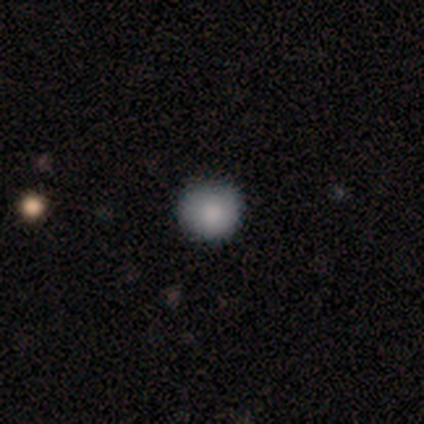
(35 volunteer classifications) Smooth or featured? 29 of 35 (83%) said smooth. How rounded? 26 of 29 (90%) said round. Merging? 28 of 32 (88%) said none.